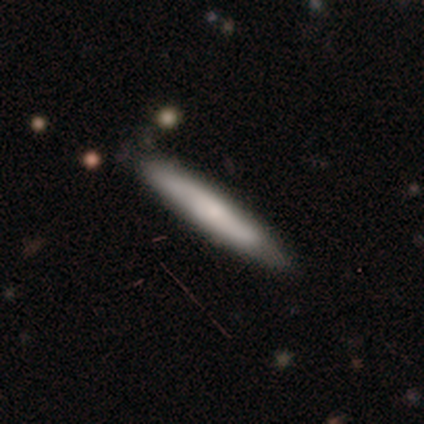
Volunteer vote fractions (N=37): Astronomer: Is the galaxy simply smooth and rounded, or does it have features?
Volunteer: smooth — 65%.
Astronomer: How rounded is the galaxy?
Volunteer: cigar-shaped — 96%.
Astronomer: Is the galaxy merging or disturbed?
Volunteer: none — 81%.